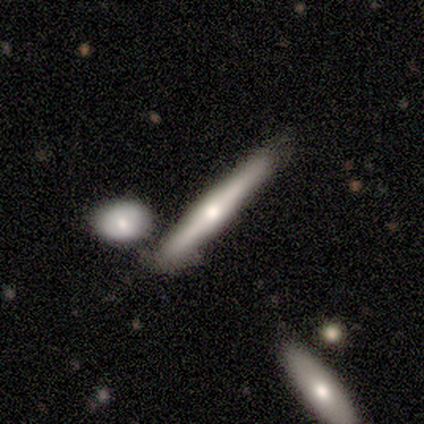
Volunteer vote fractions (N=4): Smooth or featured?
  - smooth: 50% * (tied)
  - featured or disk: 50% * (tied)
  - star or artifact: 0%
How rounded?
  - cigar-shaped: 100% *
  - round: 0%
  - in between: 0%
Merging?
  - none: 75% *
  - minor disturbance: 25%
  - major disturbance: 0%
  - merger: 0%